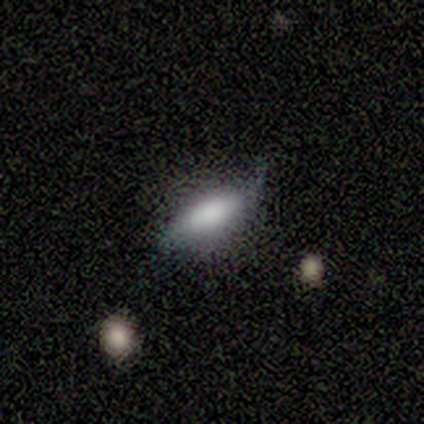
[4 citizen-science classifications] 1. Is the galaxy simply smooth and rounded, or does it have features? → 50% smooth (tied), 50% featured or disk (tied), 0% star or artifact.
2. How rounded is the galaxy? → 50% in between (tied), 50% cigar-shaped (tied), 0% round.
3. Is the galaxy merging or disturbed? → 75% none, 25% minor disturbance, 0% major disturbance, 0% merger.